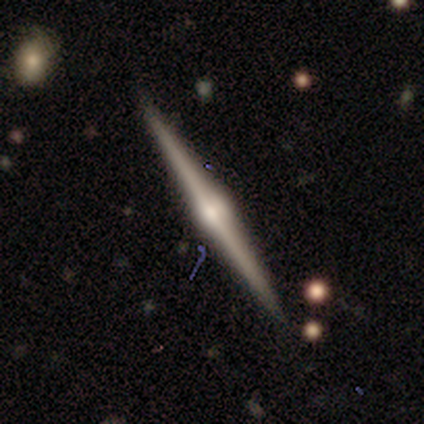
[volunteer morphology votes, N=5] featured or disk 80%, smooth 20%, star or artifact 0%. Down the decision tree: edge-on disk — yes (100%); edge-on bulge — rounded (75%); merging — none (100%).